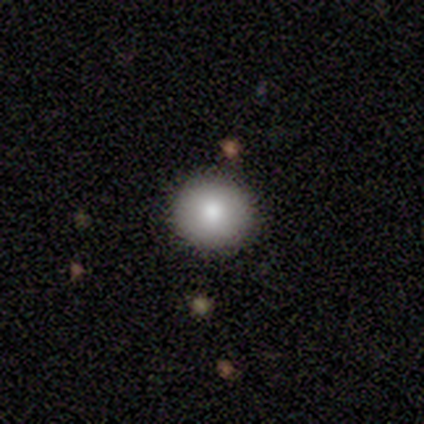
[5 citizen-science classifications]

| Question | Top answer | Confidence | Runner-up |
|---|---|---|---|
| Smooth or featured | smooth | 60% | featured or disk (40%) |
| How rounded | round | 100% | — |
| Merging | none | 80% | minor disturbance (20%) |